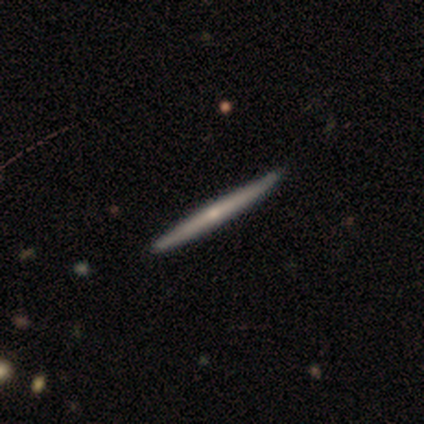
This appears to be a featured or disk galaxy (60%) viewed edge-on (100%) with no central bulge (67%). Merging: none (100%).